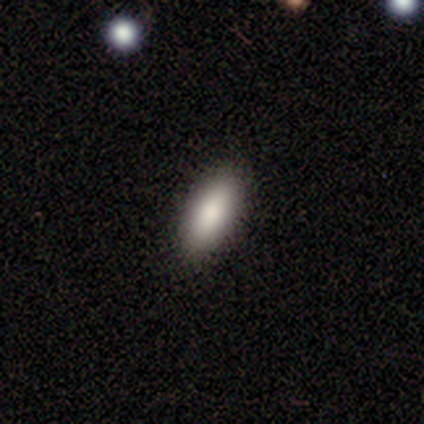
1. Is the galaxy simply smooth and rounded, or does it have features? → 100% smooth, 0% featured or disk, 0% star or artifact.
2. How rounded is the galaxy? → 100% in between, 0% round, 0% cigar-shaped.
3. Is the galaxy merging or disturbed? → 100% none, 0% minor disturbance, 0% major disturbance, 0% merger.